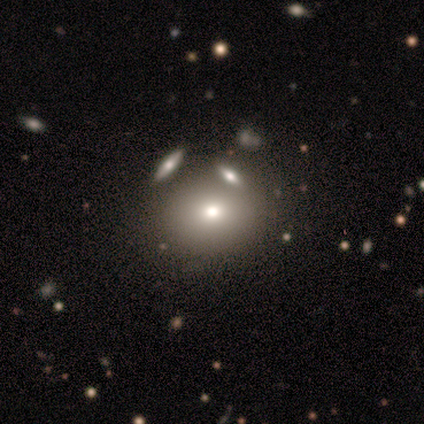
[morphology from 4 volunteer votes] Smooth or featured? smooth (50%, tied with featured or disk)
How rounded? round (100%)
Merging? none (50%, tied with merger)